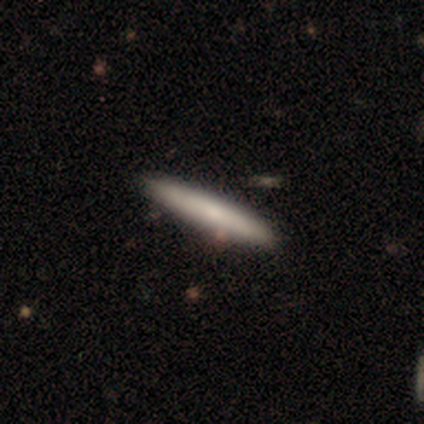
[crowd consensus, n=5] This is clearly a smooth galaxy (80%). How rounded: clearly cigar-shaped (100%). Merging: clearly none (80%).